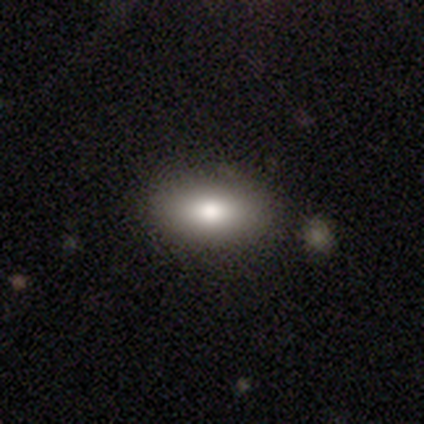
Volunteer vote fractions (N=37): smooth_or_featured: smooth (p=0.81) [alt: featured or disk p=0.11]
how_rounded: in between (p=0.83) [alt: round p=0.10]
merging: none (p=0.88) [alt: minor disturbance p=0.12]